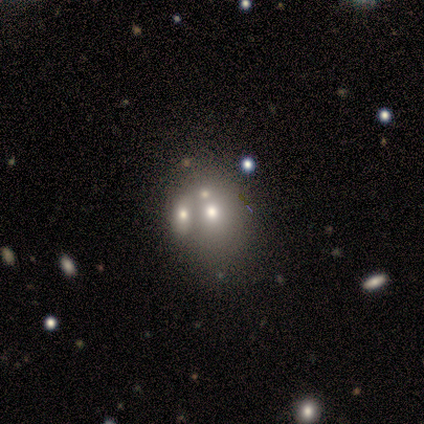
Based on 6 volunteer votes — Smooth or featured?
  - smooth: 33% * (tied)
  - featured or disk: 33% * (tied)
  - star or artifact: 33% * (tied)
How rounded?
  - round: 50% * (tied)
  - in between: 50% * (tied)
  - cigar-shaped: 0%
Merging?
  - none: 50% * (tied)
  - merger: 50% * (tied)
  - minor disturbance: 0%
  - major disturbance: 0%